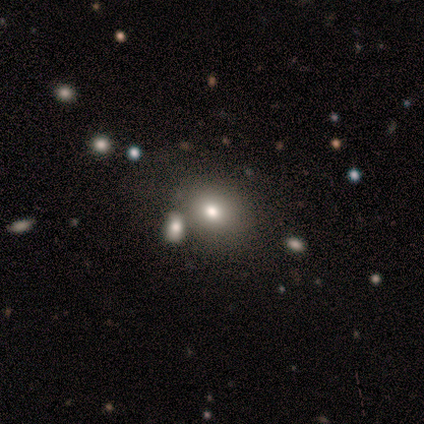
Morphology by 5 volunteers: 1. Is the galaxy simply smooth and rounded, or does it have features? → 80% smooth, 20% featured or disk, 0% star or artifact.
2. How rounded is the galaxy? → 50% round (tied), 50% in between (tied), 0% cigar-shaped.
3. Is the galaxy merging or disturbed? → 60% none, 20% minor disturbance, 20% merger, 0% major disturbance.